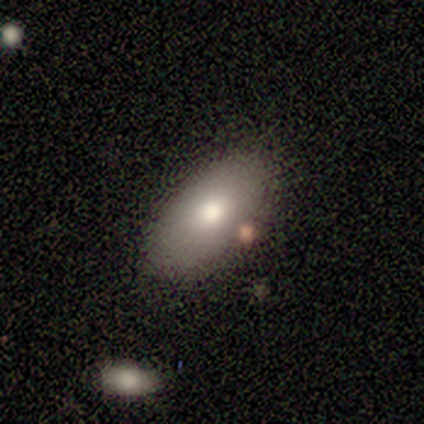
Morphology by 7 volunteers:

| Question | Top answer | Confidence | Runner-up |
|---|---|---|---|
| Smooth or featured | smooth | 86% | featured or disk (14%) |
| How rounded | in between | 100% | — |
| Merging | none | 86% | minor disturbance (14%) |